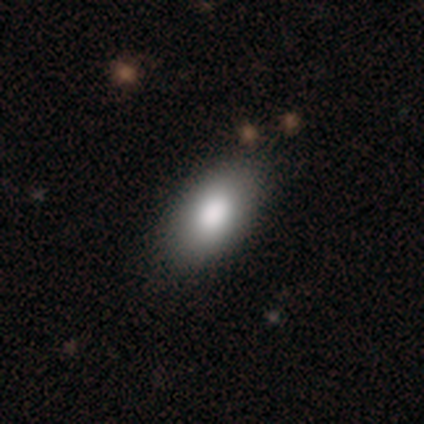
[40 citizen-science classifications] A smooth galaxy with no disk features (88%) that is in between round and cigar-shaped (97%).

Vote fractions:
- Smooth or featured? smooth: 88% / featured or disk: 8% / star or artifact: 5%
- How rounded? in between: 97% / cigar-shaped: 3% / round: 0%
- Merging? none: 58% / minor disturbance: 8% / major disturbance: 3% / merger: 0%